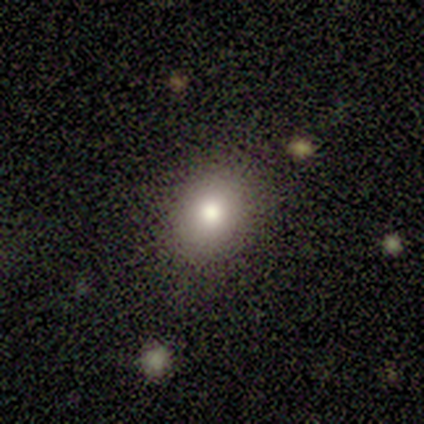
Volunteers were most divided on "how rounded": in between: 75%, round: 25%, cigar-shaped: 0%. More confident: smooth or featured — smooth (80%); merging — none (75%).